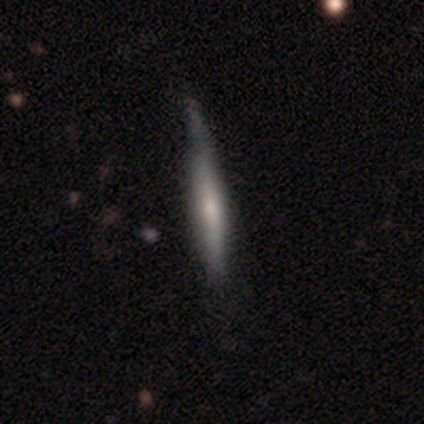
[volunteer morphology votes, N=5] Volunteers were most divided on "smooth or featured": featured or disk: 60%, smooth: 40%, star or artifact: 0%. More confident: edge-on disk — yes (100%); edge-on bulge — rounded (100%); merging — minor disturbance (60%).